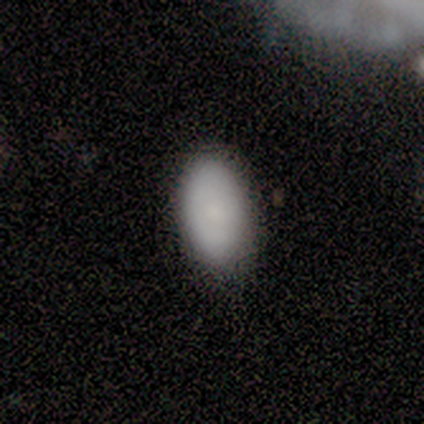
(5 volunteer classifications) Overall: smooth (100%). How rounded: in between (100%). Merging: none (60%; minor disturbance 20%).